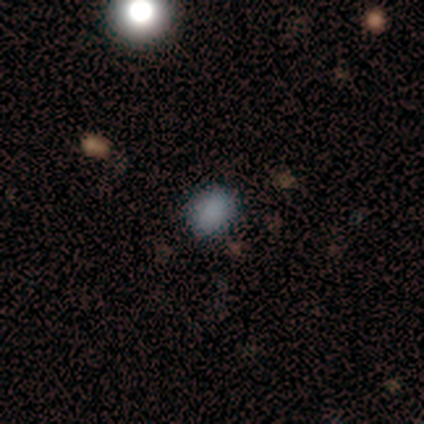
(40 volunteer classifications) Smooth or featured?
  - smooth: 78% *
  - star or artifact: 18%
  - featured or disk: 5%
How rounded?
  - round: 61% *
  - in between: 35%
  - cigar-shaped: 3%
Merging?
  - none: 91% *
  - minor disturbance: 9%
  - major disturbance: 0%
  - merger: 0%